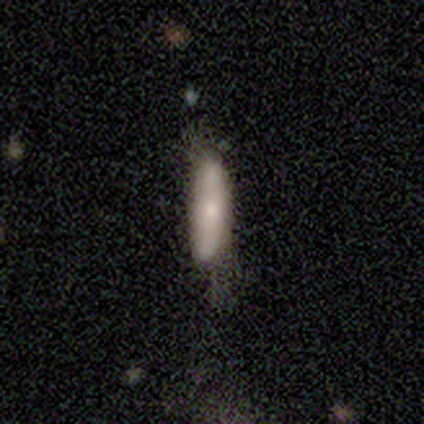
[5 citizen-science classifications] smooth_or_featured: featured or disk (p=0.60) [alt: smooth p=0.40]
disk_edge_on: yes (p=0.67) [alt: no p=0.33]
edge_on_bulge: boxy (p=0.50) [tied with: none p=0.50]
merging: none (p=0.40) [tied with: minor disturbance p=0.40]